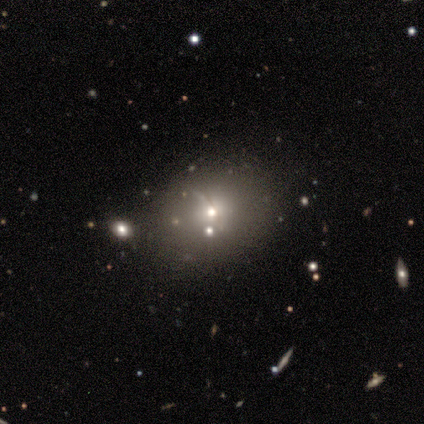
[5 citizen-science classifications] Volunteers were most divided on "smooth or featured" (2-way tie): smooth: 40%, featured or disk: 40%, star or artifact: 20%. More confident: how rounded — round (100%); merging — none (50%).